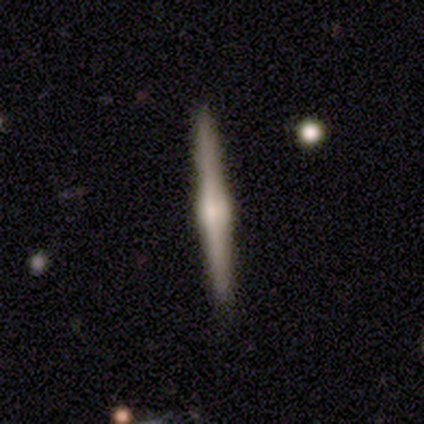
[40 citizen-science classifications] This appears to be a featured or disk galaxy (90%) viewed edge-on (97%) with a rounded central bulge (94%). Merging: none (98%).